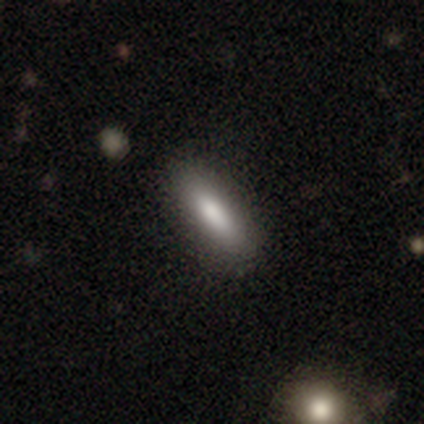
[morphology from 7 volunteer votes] Q: Smooth or featured?
A: smooth (100%)
Q: How rounded?
A: cigar-shaped (57%); runner-up: in between (43%)
Q: Merging?
A: none (100%)